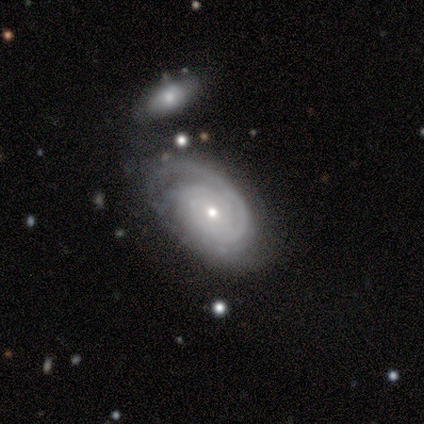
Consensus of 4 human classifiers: Smooth or featured: featured or disk — 100%
Edge-on disk: no — 100%
Bar: no — 100%
Spiral arms: yes — 100%
Spiral winding: tight — 75% (medium — 25%)
Spiral arm count: 3 — 50% (1 — 25%)
Bulge size: small — 100%
Merging: none — 75% (minor disturbance — 25%)